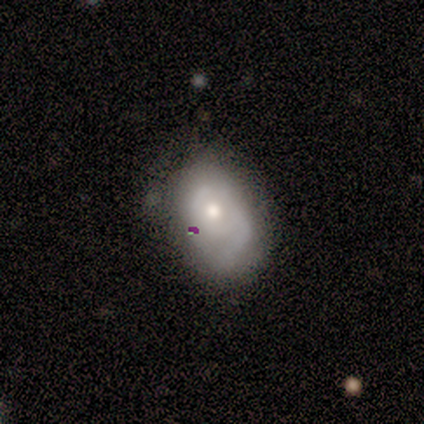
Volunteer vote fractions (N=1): Overall: smooth (100%). How rounded: in between (100%). Merging: none (100%).